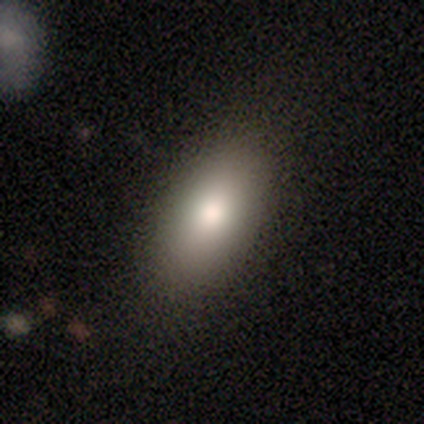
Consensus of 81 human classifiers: smooth-or-featured: smooth: 85% | featured or disk: 9% | star or artifact: 6%
  how-rounded: in between: 88% | cigar-shaped: 9% | round: 3%
  merging: none: 88% | minor disturbance: 7% | major disturbance: 3% | merger: 3%